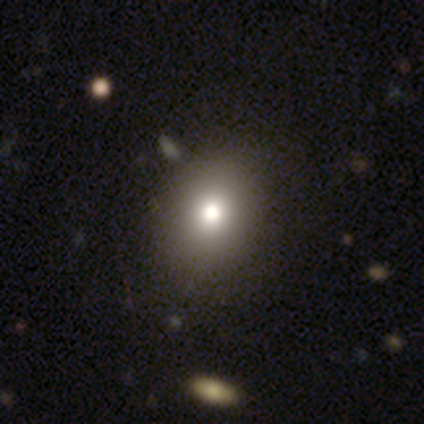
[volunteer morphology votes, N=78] Smooth or featured? 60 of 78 (77%) said smooth. How rounded? 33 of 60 (55%) said in between. Merging? 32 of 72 (44%) said none.